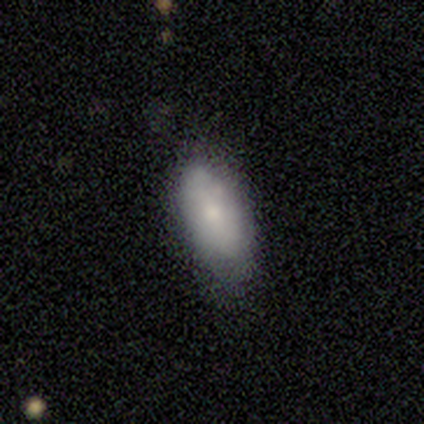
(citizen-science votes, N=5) Volunteers were most divided on "merging" (2-way tie): none: 40%, minor disturbance: 40%, major disturbance: 20%, merger: 0%. More confident: how rounded — in between (100%); smooth or featured — smooth (80%).